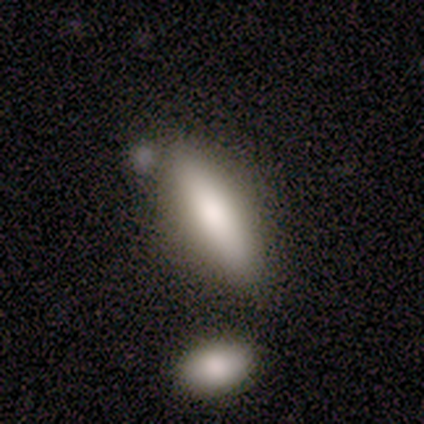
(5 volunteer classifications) Morphology: type=smooth (60%); roundness=in between (67%); merging=none (75%).